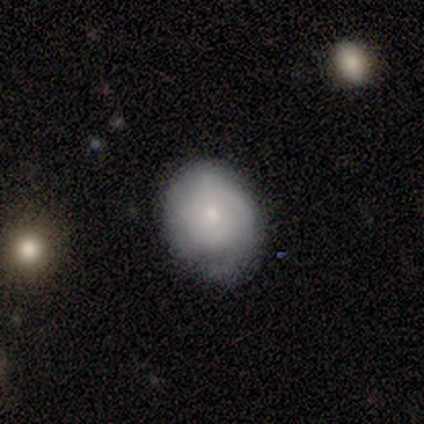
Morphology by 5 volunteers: Smooth or featured?
  - featured or disk: 60% *
  - smooth: 40%
  - star or artifact: 0%
Edge-on disk?
  - no: 100% *
  - yes: 0%
Bar?
  - no: 100% *
  - strong: 0%
  - weak: 0%
Spiral arms?
  - yes: 100% *
  - no: 0%
Spiral winding?
  - tight: 67% *
  - medium: 33%
  - loose: 0%
Spiral arm count?
  - can't tell: 67% *
  - 2: 33%
  - 1: 0%
  - 3: 0%
  - 4: 0%
  - more than 4: 0%
Bulge size?
  - small: 67% *
  - moderate: 33%
  - dominant: 0%
  - large: 0%
  - none: 0%
Merging?
  - minor disturbance: 60% *
  - none: 40%
  - major disturbance: 0%
  - merger: 0%